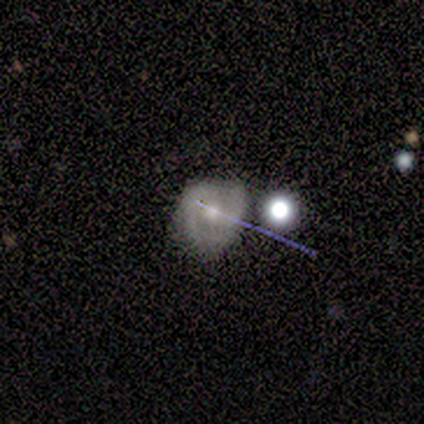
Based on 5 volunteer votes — featured or disk 60%, smooth 40%, star or artifact 0%. Down the decision tree: edge-on disk — no (100%); bar — no (100%); spiral arms — yes (67%); spiral arm count — 3 (50%, tied with can't tell); spiral winding — medium (100%); bulge size — small (67%); merging — none (40%, tied with minor disturbance).